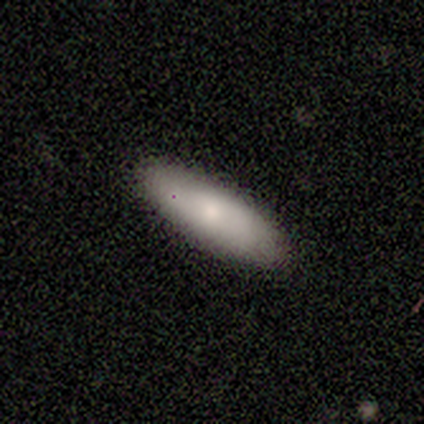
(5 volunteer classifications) Volunteers were most divided on "smooth or featured": smooth: 60%, featured or disk: 20%, star or artifact: 20%. More confident: how rounded — in between (100%); merging — none (100%).